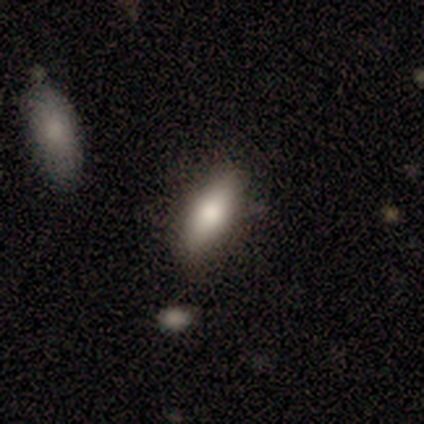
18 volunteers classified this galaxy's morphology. A smooth galaxy with no disk features (83%) that is in between round and cigar-shaped (67%). Merging: none (76%).